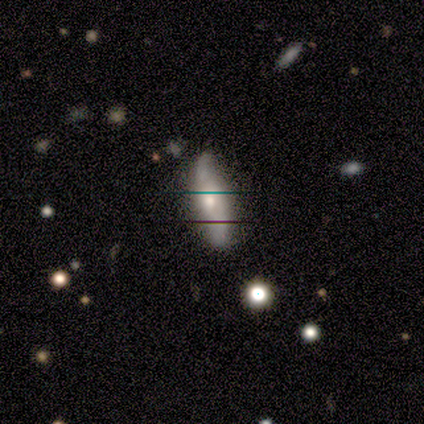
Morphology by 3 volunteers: smooth-or-featured: smooth: 67% | featured or disk: 33% | star or artifact: 0%
  how-rounded: in between: 100% | round: 0% | cigar-shaped: 0%
  merging: minor disturbance: 67% | none: 33% | major disturbance: 0% | merger: 0%